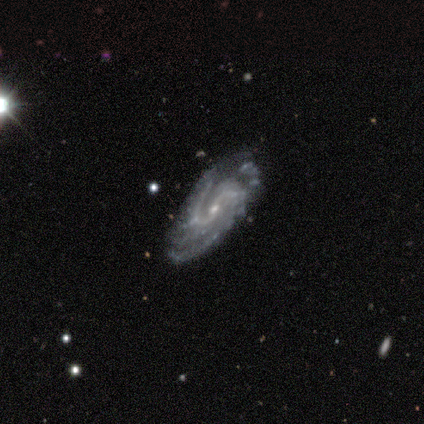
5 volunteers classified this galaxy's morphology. Q: Smooth or featured?
A: featured or disk (100%)
Q: Edge-on disk?
A: no (80%); runner-up: yes (20%)
Q: Bar?
A: no (75%); runner-up: weak (25%)
Q: Spiral arms?
A: yes (100%)
Q: Spiral winding?
A: tight (75%); runner-up: medium (25%)
Q: Spiral arm count?
A: 2 (100%)
Q: Bulge size?
A: small (75%); runner-up: moderate (25%)
Q: Merging?
A: none (80%); runner-up: major disturbance (20%)